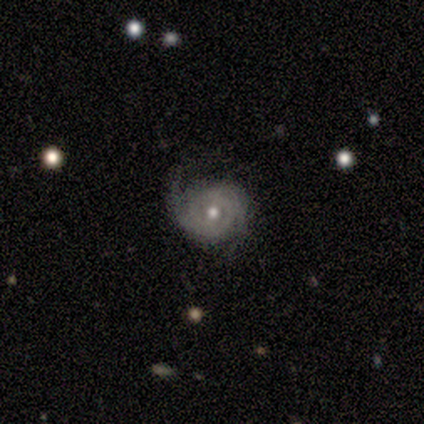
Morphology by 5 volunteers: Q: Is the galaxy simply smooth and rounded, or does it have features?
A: featured or disk — 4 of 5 (80%).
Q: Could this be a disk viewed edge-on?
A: no — 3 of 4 (75%).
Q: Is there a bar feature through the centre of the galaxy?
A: no — 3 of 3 (100%).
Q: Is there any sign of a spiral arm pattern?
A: yes — 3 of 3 (100%).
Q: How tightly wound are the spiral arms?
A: medium — 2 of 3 (67%).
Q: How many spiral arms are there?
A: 2 — 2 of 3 (67%).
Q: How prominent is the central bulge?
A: moderate — 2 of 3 (67%).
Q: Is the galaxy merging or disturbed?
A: none — 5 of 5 (100%).